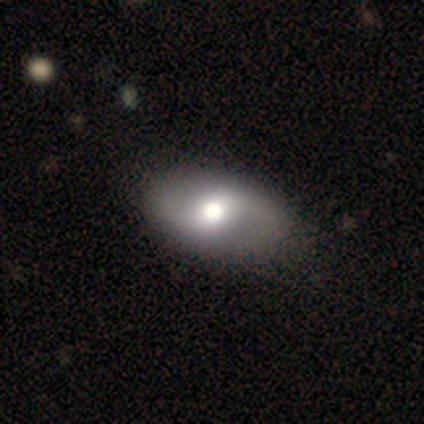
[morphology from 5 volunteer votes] smooth_or_featured: featured or disk (p=0.60) [alt: smooth p=0.20]
disk_edge_on: no (p=1.00)
bar: no (p=0.67) [alt: weak p=0.33]
has_spiral_arms: yes (p=1.00)
spiral_winding: medium (p=0.67) [alt: loose p=0.33]
spiral_arm_count: 2 (p=1.00)
bulge_size: large (p=1.00)
merging: none (p=1.00)